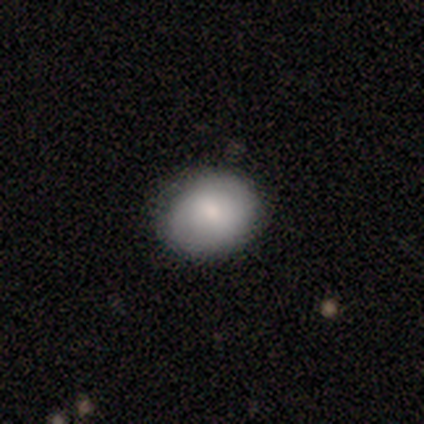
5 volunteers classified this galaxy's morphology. Volunteers were most divided on "how rounded": round: 60%, in between: 40%, cigar-shaped: 0%. More confident: smooth or featured — smooth (100%); merging — none (80%).